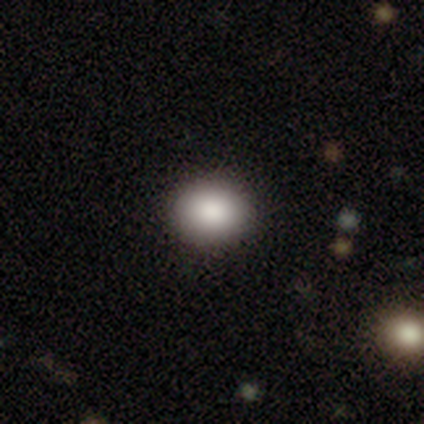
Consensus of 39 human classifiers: Morphology: type=smooth (77%); roundness=round (60%); merging=none (100%).